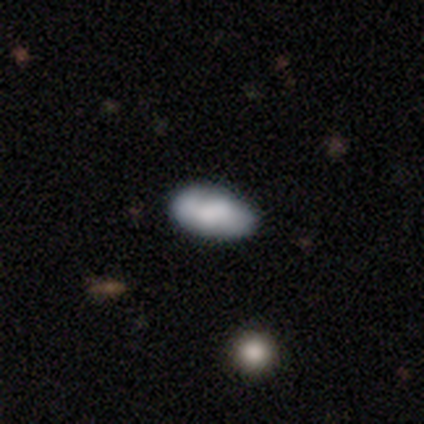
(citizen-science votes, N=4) Q: Smooth or featured?
A: smooth (75%); runner-up: featured or disk (25%)
Q: How rounded?
A: in between (100%)
Q: Merging?
A: none (100%)